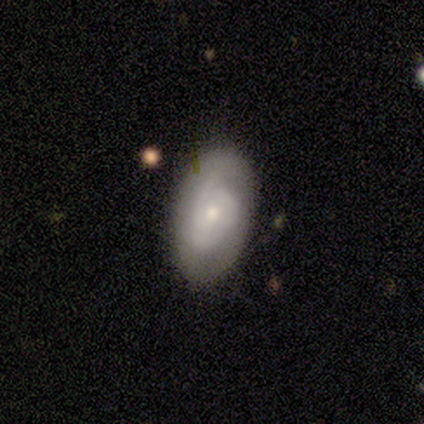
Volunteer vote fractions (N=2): Overall: smooth (100%). How rounded: in between (100%). Merging: none (50%, tied with minor disturbance).